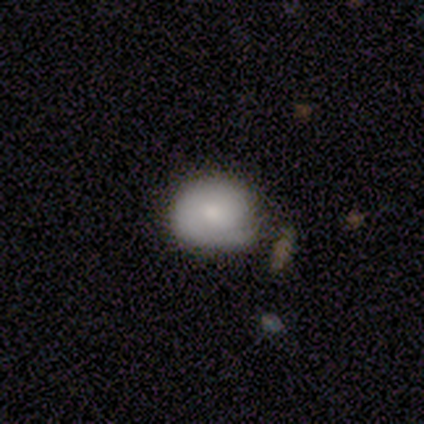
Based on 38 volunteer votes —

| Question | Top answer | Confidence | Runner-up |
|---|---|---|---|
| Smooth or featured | smooth | 68% | featured or disk (21%) |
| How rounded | round | 85% | in between (15%) |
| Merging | none | 38% | minor disturbance (32%) |